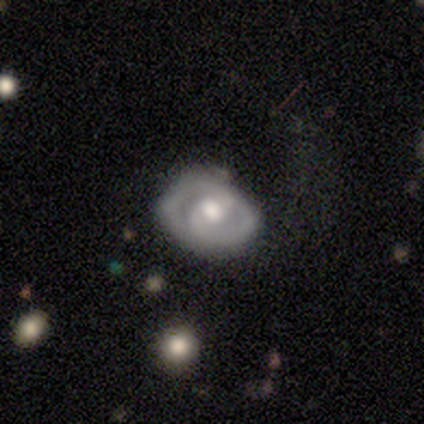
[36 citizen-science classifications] Q: Smooth or featured?
A: featured or disk (61%); runner-up: smooth (33%)
Q: Edge-on disk?
A: no (91%); runner-up: yes (9%)
Q: Bar?
A: weak (50%); runner-up: no (35%)
Q: Spiral arms?
A: yes (90%); runner-up: no (10%)
Q: Spiral winding?
A: medium (61%); runner-up: tight (28%)
Q: Spiral arm count?
A: 2 (83%); runner-up: 1 (11%)
Q: Bulge size?
A: moderate (85%); runner-up: large (10%)
Q: Merging?
A: none (65%); runner-up: major disturbance (24%)